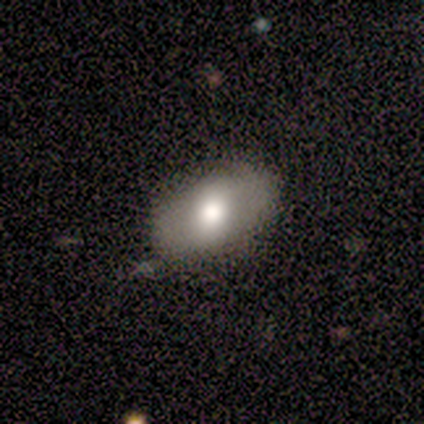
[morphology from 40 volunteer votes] Overall: smooth (65%; featured or disk 28%). How rounded: in between (92%). Merging: none (78%).